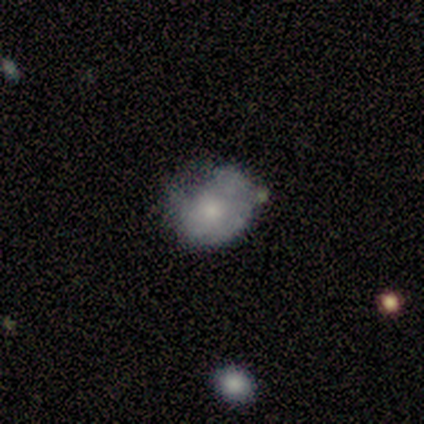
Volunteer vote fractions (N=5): Smooth or featured? featured or disk (100%)
Edge-on disk? no (100%)
Bar? no (100%)
Spiral arms? no (80%)
Bulge size? small (80%)
Merging? none (40%, tied with minor disturbance)